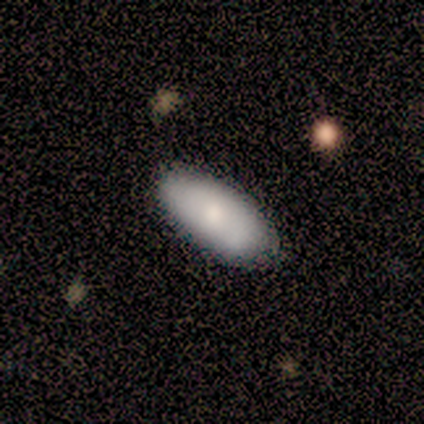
smooth_or_featured: smooth (p=1.00)
how_rounded: in between (p=0.80) [alt: cigar-shaped p=0.20]
merging: none (p=0.80) [alt: minor disturbance p=0.20]